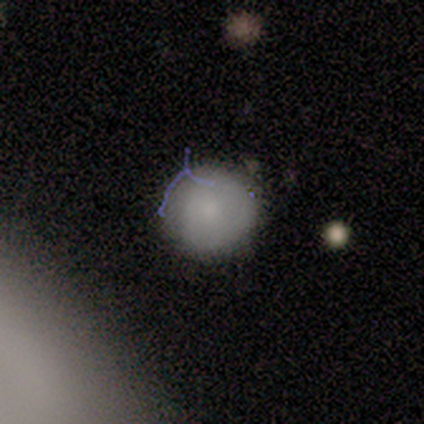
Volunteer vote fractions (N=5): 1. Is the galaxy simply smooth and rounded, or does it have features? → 100% smooth, 0% featured or disk, 0% star or artifact.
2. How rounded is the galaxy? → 100% round, 0% in between, 0% cigar-shaped.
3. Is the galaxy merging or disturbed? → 60% none, 40% minor disturbance, 0% major disturbance, 0% merger.